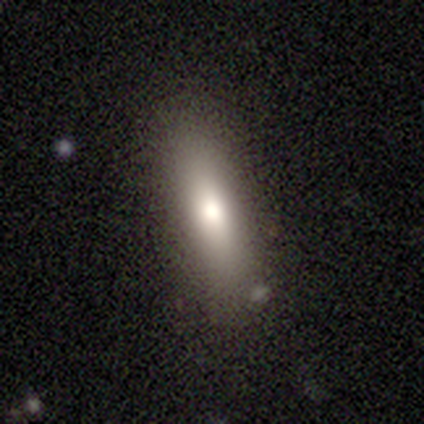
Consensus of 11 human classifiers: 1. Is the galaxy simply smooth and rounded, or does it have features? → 55% smooth, 27% featured or disk, 18% star or artifact.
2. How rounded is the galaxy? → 67% cigar-shaped, 33% in between, 0% round.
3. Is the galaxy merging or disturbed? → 100% none, 0% minor disturbance, 0% major disturbance, 0% merger.